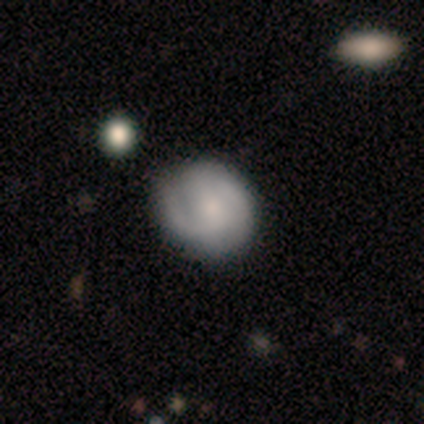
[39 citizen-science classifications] Smooth or featured? featured or disk (67%)
Edge-on disk? no (92%)
Bar? no (67%)
Spiral arms? yes (92%)
Spiral winding? medium (50%)
Spiral arm count? 2 (73%)
Bulge size? small (54%)
Merging? none (67%)